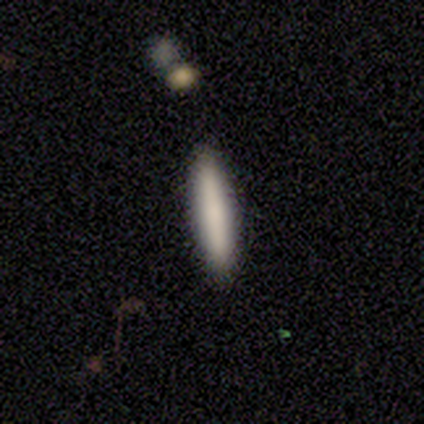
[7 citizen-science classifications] A smooth galaxy with no disk features (86%) that is cigar-shaped (100%). Merging: none (67%).